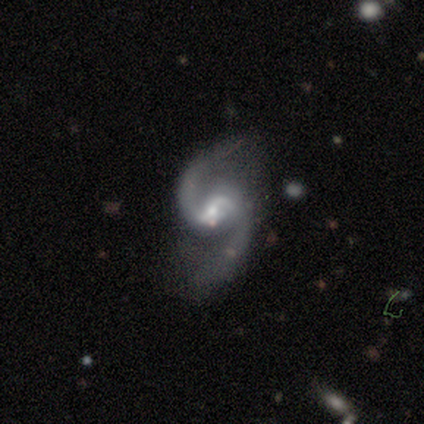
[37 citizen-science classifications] featured or disk 81%, star or artifact 11%, smooth 8%. Down the decision tree: edge-on disk — no (100%); bar — weak (60%); spiral arms — yes (97%); spiral arm count — 2 (100%); spiral winding — medium (48%); bulge size — moderate (57%); merging — none (73%).